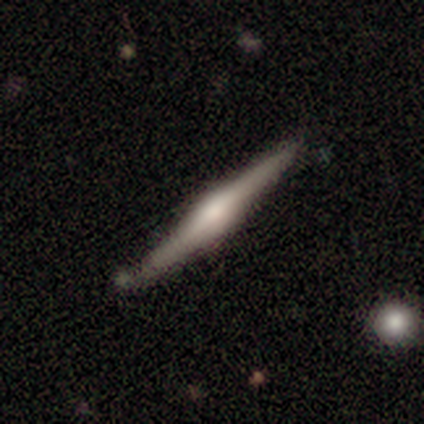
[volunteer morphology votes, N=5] A featured or disk galaxy (80%) viewed edge-on (100%) with a rounded central bulge (100%). Merging: none (60%).